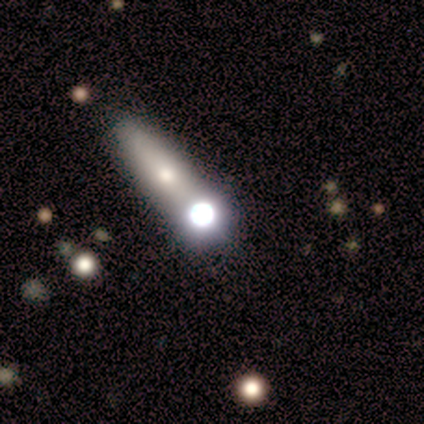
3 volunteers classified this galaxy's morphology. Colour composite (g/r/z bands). It shows a star or artifact, not a galaxy (67%).